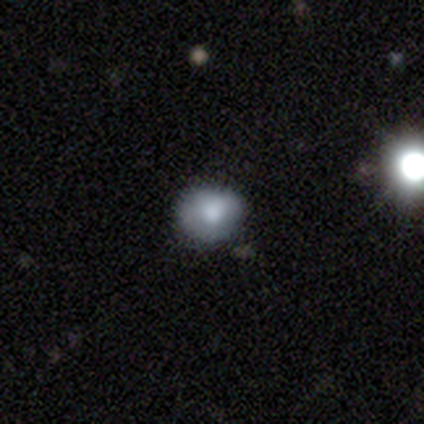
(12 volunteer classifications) Q: Smooth or featured?
A: smooth (75%); runner-up: featured or disk (17%)
Q: How rounded?
A: round (100%)
Q: Merging?
A: none (64%); runner-up: minor disturbance (27%)